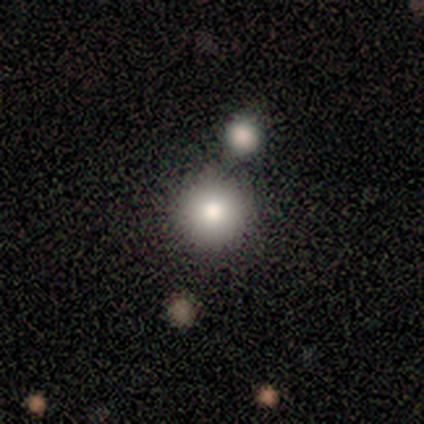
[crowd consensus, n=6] Overall: smooth (50%, tied with star or artifact). How rounded: round (100%). Merging: none (67%; major disturbance 33%).